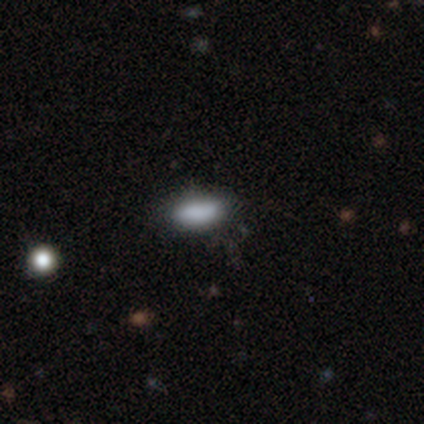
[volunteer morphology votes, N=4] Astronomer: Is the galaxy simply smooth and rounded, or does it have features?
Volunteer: smooth — 100%.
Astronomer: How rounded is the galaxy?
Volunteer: in between — 100%.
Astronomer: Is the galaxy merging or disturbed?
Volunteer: none — 50%, tied with minor disturbance at 50%.